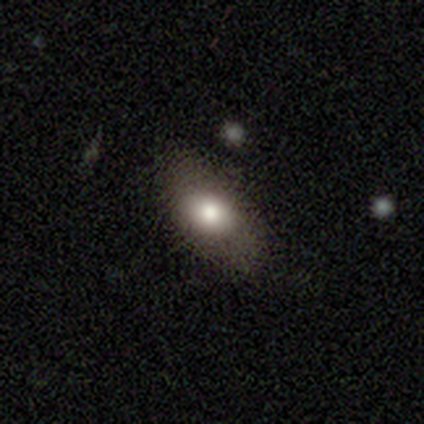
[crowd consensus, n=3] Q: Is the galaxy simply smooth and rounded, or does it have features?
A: smooth — 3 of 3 (100%).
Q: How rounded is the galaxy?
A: in between — 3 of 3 (100%).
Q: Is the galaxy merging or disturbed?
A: none — 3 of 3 (100%).